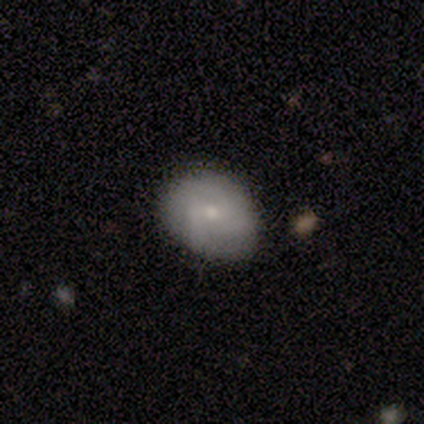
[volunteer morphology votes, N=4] Q: Smooth or featured?
A: smooth (50%); runner-up: featured or disk (25%)
Q: How rounded?
A: in between (100%)
Q: Merging?
A: minor disturbance (67%); runner-up: none (33%)